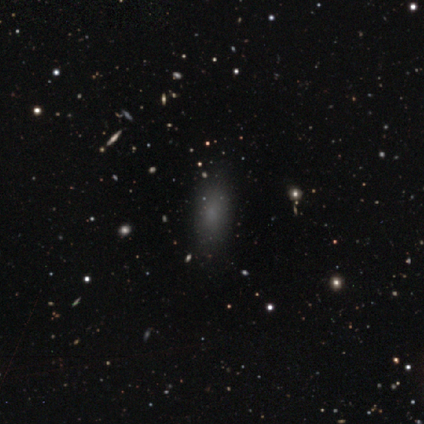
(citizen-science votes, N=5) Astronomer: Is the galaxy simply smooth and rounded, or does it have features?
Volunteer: smooth — 80%.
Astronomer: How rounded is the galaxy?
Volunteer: cigar-shaped — 75%.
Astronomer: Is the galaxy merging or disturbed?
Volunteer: none — 75%.